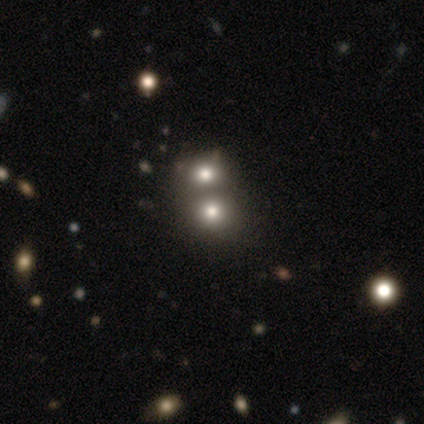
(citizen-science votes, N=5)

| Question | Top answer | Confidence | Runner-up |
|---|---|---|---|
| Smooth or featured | smooth | 80% | star or artifact (20%) |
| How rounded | round | 75% | in between (25%) |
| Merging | merger | 75% | minor disturbance (25%) |